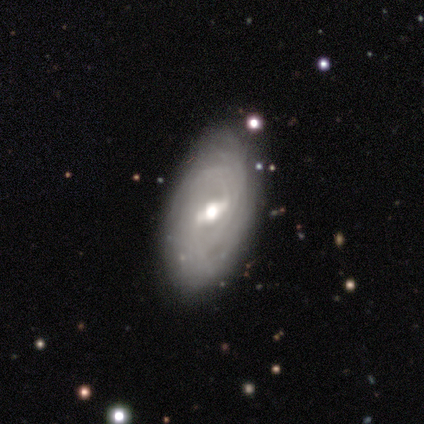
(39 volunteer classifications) Morphology: type=featured or disk (85%); edge-on=no (97%); bar=weak (53%); spiral arms=yes (81%); winding=tight (62%); arm count=can't tell (50%); bulge=moderate (72%); merging=none (66%).